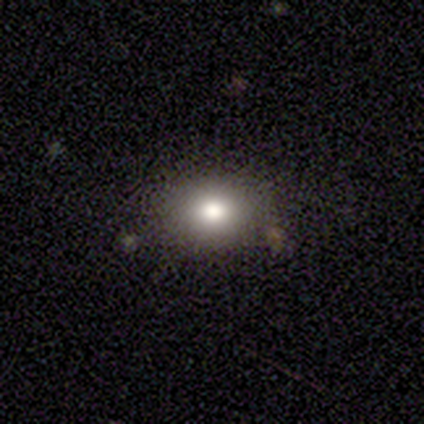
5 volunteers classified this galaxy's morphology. Smooth or featured? smooth (100%)
How rounded? in between (60%)
Merging? none (100%)